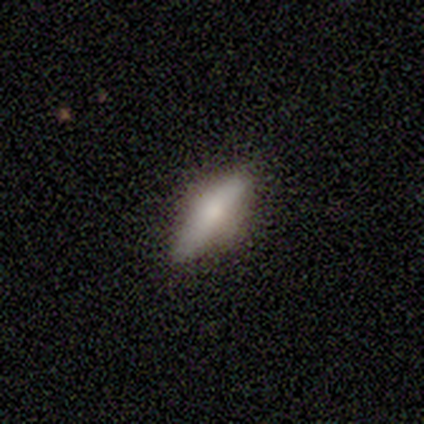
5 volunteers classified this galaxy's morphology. A smooth galaxy with no disk features (60%) that is cigar-shaped (67%).

Vote fractions:
- Smooth or featured? smooth: 60% / featured or disk: 40% / star or artifact: 0%
- How rounded? cigar-shaped: 67% / in between: 33% / round: 0%
- Merging? none: 100% / minor disturbance: 0% / major disturbance: 0% / merger: 0%